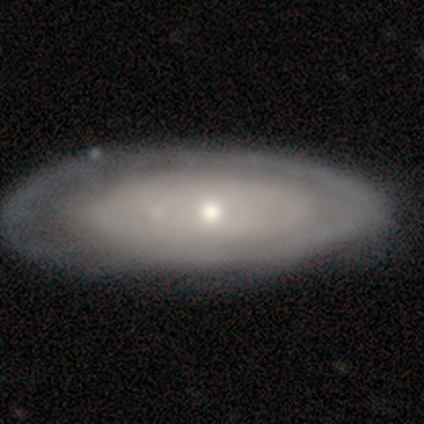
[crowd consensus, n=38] smooth-or-featured: featured or disk: 68% | smooth: 29% | star or artifact: 3%
  disk-edge-on: no: 88% | yes: 12%
    bar: no: 87% | weak: 9% | strong: 4%
    has-spiral-arms: no: 65% | yes: 35%
    bulge-size: moderate: 48% | small: 43% | dominant: 4% | large: 4% | none: 0%
  merging: none: 59% | minor disturbance: 32% | major disturbance: 5% | merger: 3%